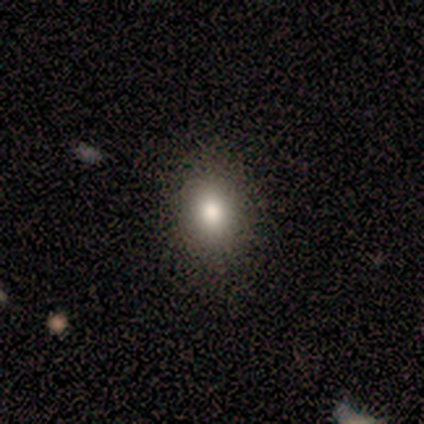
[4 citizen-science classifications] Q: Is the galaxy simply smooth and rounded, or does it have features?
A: smooth — 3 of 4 (75%).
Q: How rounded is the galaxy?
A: round — 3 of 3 (100%).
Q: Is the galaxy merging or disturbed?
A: none — 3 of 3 (100%).